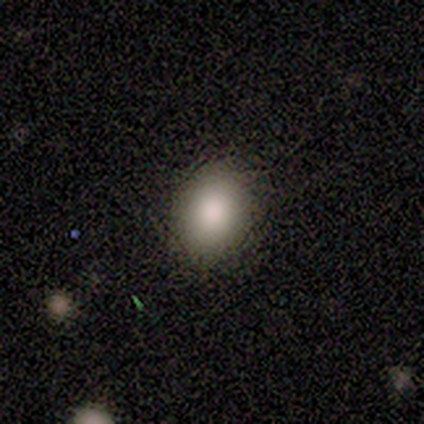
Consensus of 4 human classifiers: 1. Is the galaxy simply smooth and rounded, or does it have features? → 100% smooth, 0% featured or disk, 0% star or artifact.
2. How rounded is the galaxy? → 75% in between, 25% round, 0% cigar-shaped.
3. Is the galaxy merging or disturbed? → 100% none, 0% minor disturbance, 0% major disturbance, 0% merger.